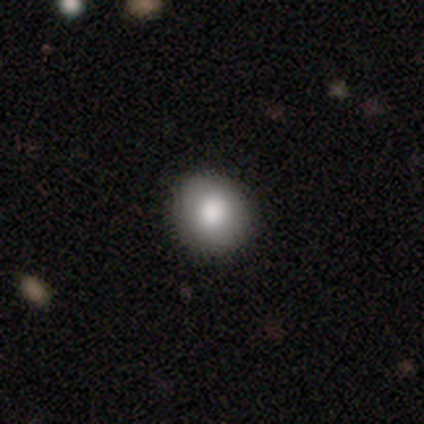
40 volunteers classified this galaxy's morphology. type=smooth (80%); roundness=round (84%); merging=none (89%).